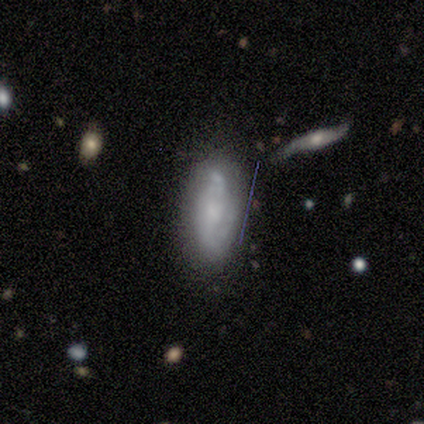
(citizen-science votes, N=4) smooth-or-featured: smooth: 50% (tied) | featured or disk: 50% (tied) | star or artifact: 0%
  how-rounded: in between: 100% | round: 0% | cigar-shaped: 0%
  merging: none: 100% | minor disturbance: 0% | major disturbance: 0% | merger: 0%